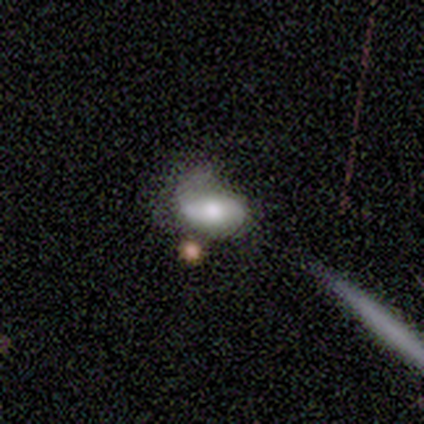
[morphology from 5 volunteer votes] Overall: smooth (40%, tied with featured or disk). How rounded: in between (100%). Merging: minor disturbance (50%; none 25%).